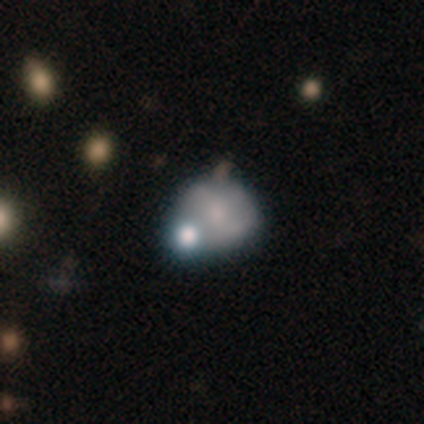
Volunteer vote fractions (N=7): Volunteers were most divided on "smooth or featured": smooth: 57%, featured or disk: 43%, star or artifact: 0%. Remaining: how rounded — round (75%); merging — none (43%).